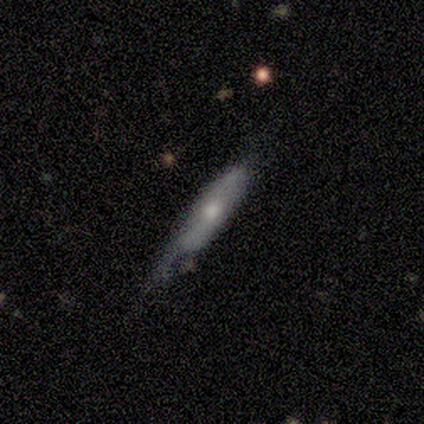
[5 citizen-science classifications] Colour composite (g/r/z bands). It shows a featured or disk galaxy (60%) viewed edge-on (100%) with a rounded central bulge (100%). Merging: minor disturbance (60%).